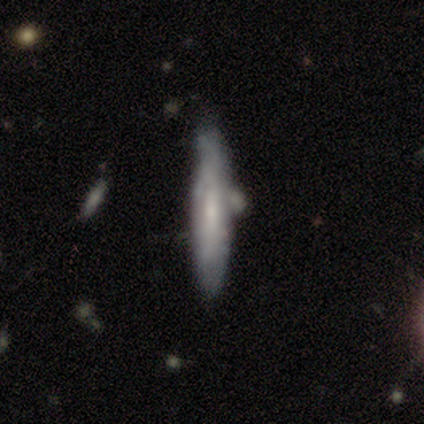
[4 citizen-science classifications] Smooth or featured?
  - smooth: 75% *
  - featured or disk: 25%
  - star or artifact: 0%
How rounded?
  - cigar-shaped: 100% *
  - round: 0%
  - in between: 0%
Merging?
  - minor disturbance: 75% *
  - none: 25%
  - major disturbance: 0%
  - merger: 0%